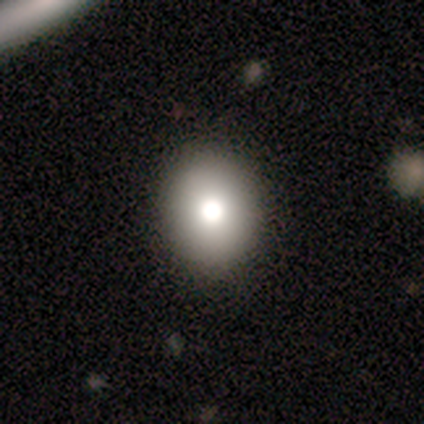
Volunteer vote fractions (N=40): Smooth or featured: smooth — 75% (featured or disk — 20%)
How rounded: round — 63% (in between — 37%)
Merging: none — 71% (minor disturbance — 8%)